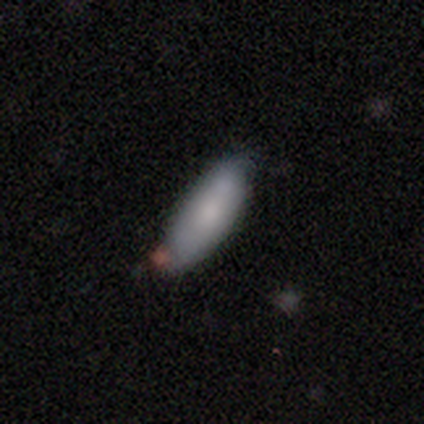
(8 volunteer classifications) Smooth or featured: smooth — 88% (star or artifact — 12%)
How rounded: in between — 71% (cigar-shaped — 29%)
Merging: none — 57% (minor disturbance — 43%)